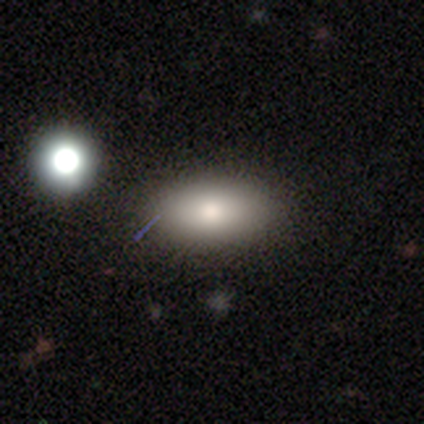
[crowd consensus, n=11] Smooth or featured?
  - smooth: 82% *
  - featured or disk: 18%
  - star or artifact: 0%
How rounded?
  - in between: 89% *
  - round: 11%
  - cigar-shaped: 0%
Merging?
  - none: 91% *
  - minor disturbance: 9%
  - major disturbance: 0%
  - merger: 0%